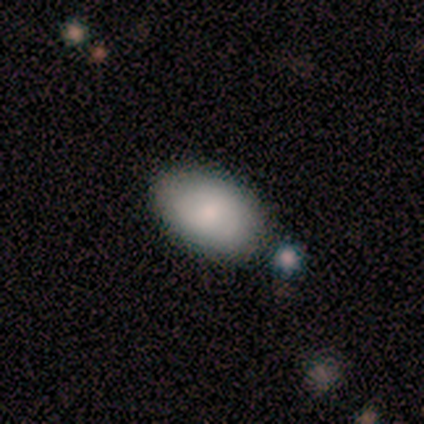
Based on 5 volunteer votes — Smooth or featured: smooth — 80% (star or artifact — 20%)
How rounded: in between — 75% (round — 25%)
Merging: none — 100%